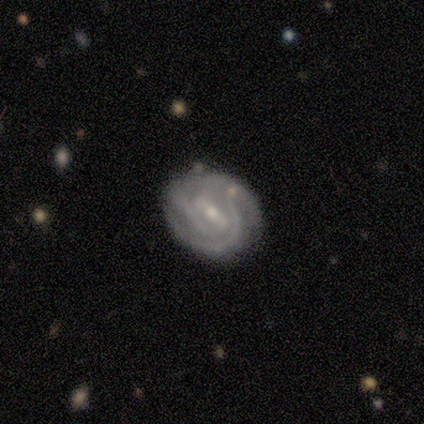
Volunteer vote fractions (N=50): Smooth or featured?
  - featured or disk: 92% *
  - smooth: 6%
  - star or artifact: 2%
Edge-on disk?
  - no: 96% *
  - yes: 4%
Bar?
  - strong: 52% *
  - weak: 36%
  - no: 11%
Spiral arms?
  - yes: 95% *
  - no: 5%
Spiral winding?
  - tight: 71% *
  - medium: 26%
  - loose: 2%
Spiral arm count?
  - 2: 50% *
  - 3: 31%
  - can't tell: 12%
  - 1: 2%
  - 4: 2%
  - more than 4: 2%
Bulge size?
  - small: 66% *
  - moderate: 30%
  - none: 5%
  - dominant: 0%
  - large: 0%
Merging?
  - none: 73% *
  - minor disturbance: 20%
  - merger: 4%
  - major disturbance: 2%